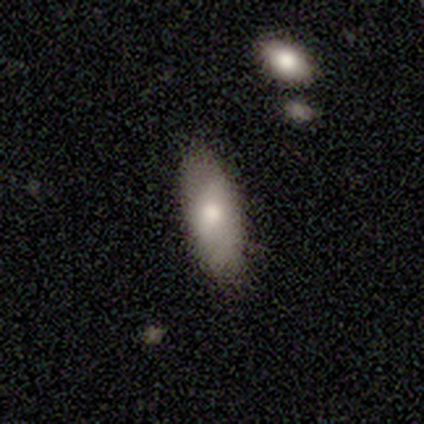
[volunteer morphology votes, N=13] type=smooth (100%); roundness=in between (69%); merging=none (92%).